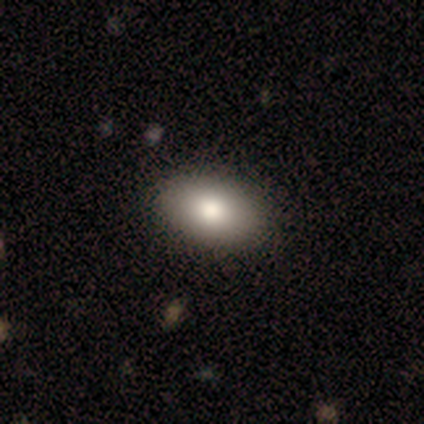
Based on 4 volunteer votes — This appears to be a smooth galaxy with no disk features (100%) that is in between round and cigar-shaped (100%). Merging: none (100%).